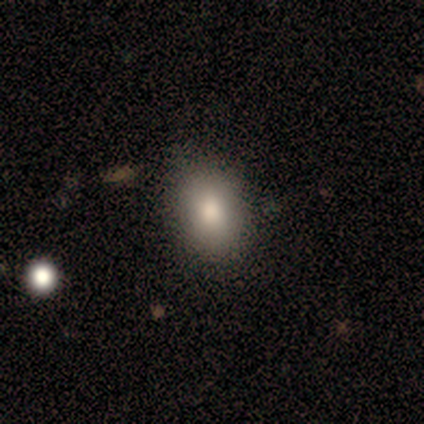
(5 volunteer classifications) smooth 100%, featured or disk 0%, star or artifact 0%. Down the decision tree: how rounded — in between (80%); merging — none (100%).